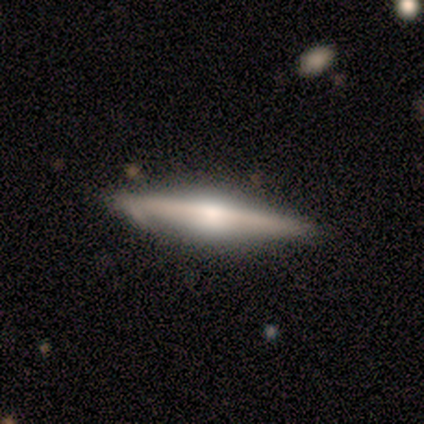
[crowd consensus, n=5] featured or disk 100%, smooth 0%, star or artifact 0%. Down the decision tree: edge-on disk — yes (100%); edge-on bulge — rounded (100%); merging — minor disturbance (60%).